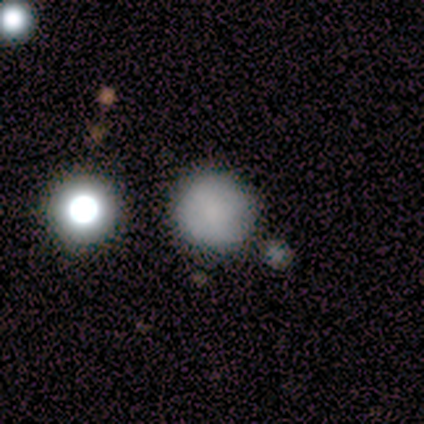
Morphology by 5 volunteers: smooth 60%, featured or disk 20%, star or artifact 20%. Down the decision tree: how rounded — round (100%); merging — none (75%).